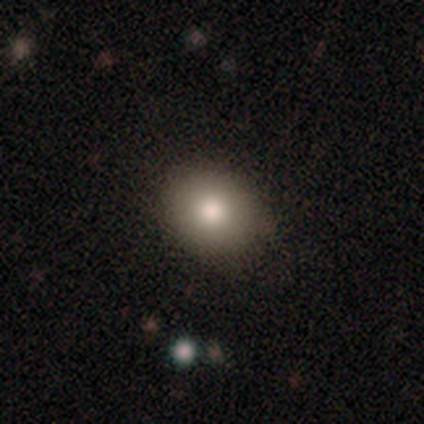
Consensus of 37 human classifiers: Volunteers were most divided on "how rounded": round: 61%, in between: 39%, cigar-shaped: 0%. More confident: merging — none (85%); smooth or featured — smooth (84%).